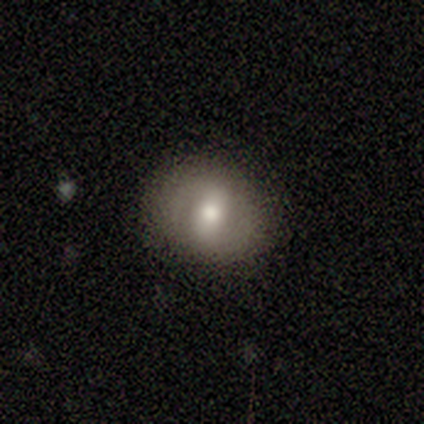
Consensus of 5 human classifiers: A star or artifact, not a galaxy (60%).

Vote fractions:
- Smooth or featured? star or artifact: 60% / smooth: 20% / featured or disk: 20%